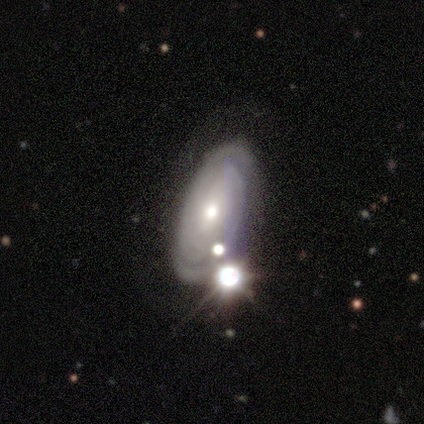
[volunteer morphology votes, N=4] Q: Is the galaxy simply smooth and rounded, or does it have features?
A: featured or disk — 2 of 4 (50%).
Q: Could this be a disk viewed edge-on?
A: no — 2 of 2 (100%).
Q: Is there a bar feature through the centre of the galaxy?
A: weak — 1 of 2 (50%, tied with no).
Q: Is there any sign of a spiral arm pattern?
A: yes — 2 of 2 (100%).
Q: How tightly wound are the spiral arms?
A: tight — 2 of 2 (100%).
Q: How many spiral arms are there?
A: can't tell — 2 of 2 (100%).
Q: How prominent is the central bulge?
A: small — 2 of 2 (100%).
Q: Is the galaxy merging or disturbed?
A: none — 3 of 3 (100%).